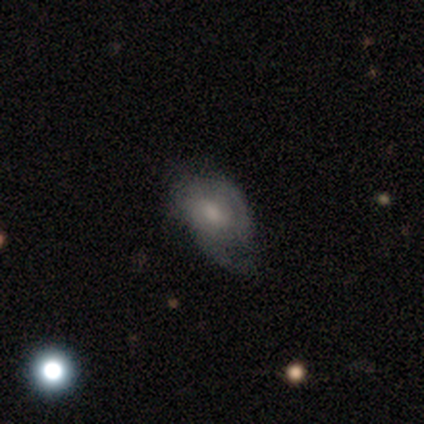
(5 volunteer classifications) smooth_or_featured: featured or disk (p=0.60) [alt: smooth p=0.40]
disk_edge_on: no (p=1.00)
bar: no (p=0.67) [alt: weak p=0.33]
has_spiral_arms: yes (p=1.00)
spiral_winding: loose (p=0.67) [alt: medium p=0.33]
spiral_arm_count: 1 (p=0.33) [tied with: 2 p=0.33, can't tell p=0.33]
bulge_size: small (p=0.67) [alt: dominant p=0.33]
merging: minor disturbance (p=0.60) [alt: none p=0.20]